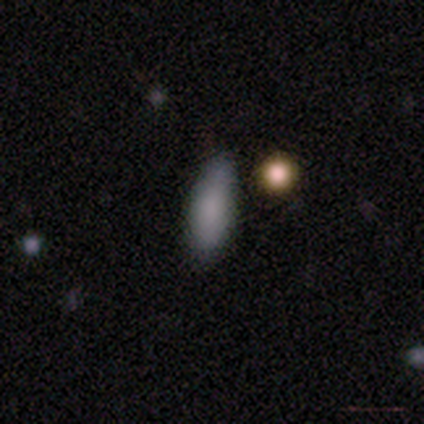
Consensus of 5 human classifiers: Overall: smooth (100%). How rounded: cigar-shaped (60%; in between 40%). Merging: none (100%).